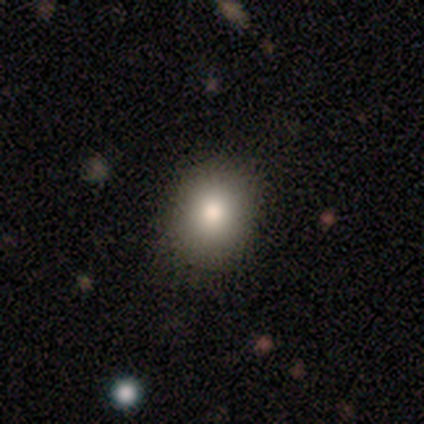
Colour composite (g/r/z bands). It shows a smooth galaxy with no disk features (100%) that is round (80%). Merging: none (100%).